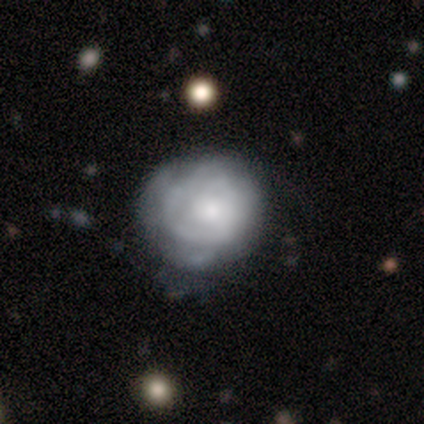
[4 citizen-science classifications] Overall: featured or disk (100%). Edge-on disk: no (100%). Bar: no (100%). Spiral arms: yes (75%). Spiral arm count: can't tell (100%). Spiral winding: loose (67%; tight 33%). Bulge size: small (50%; large 25%). Merging: minor disturbance (75%).